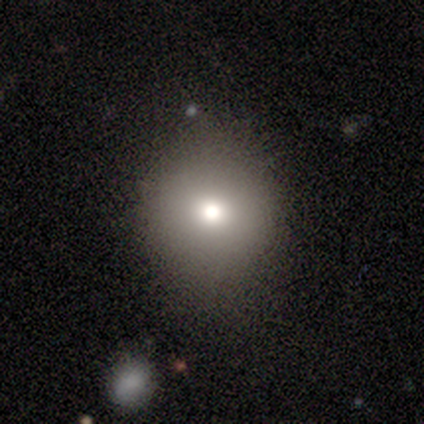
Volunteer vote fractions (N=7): This is likely a smooth galaxy (71%). How rounded: clearly round (80%). Merging: clearly none (86%).